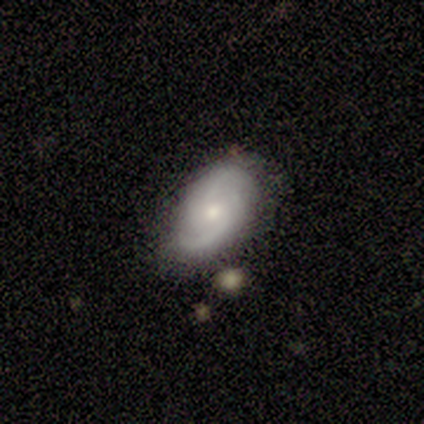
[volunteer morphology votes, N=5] featured or disk 60%, smooth 40%, star or artifact 0%. Down the decision tree: edge-on disk — no (100%); bar — no (100%); spiral arms — yes (100%); spiral arm count — 2 (100%); spiral winding — loose (67%); bulge size — moderate (100%); merging — none (80%).